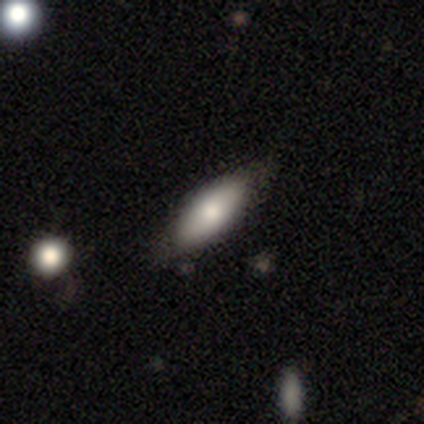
Q: Smooth or featured?
A: smooth (67%); runner-up: featured or disk (25%)
Q: How rounded?
A: in between (88%); runner-up: cigar-shaped (12%)
Q: Merging?
A: none (73%); runner-up: minor disturbance (18%)